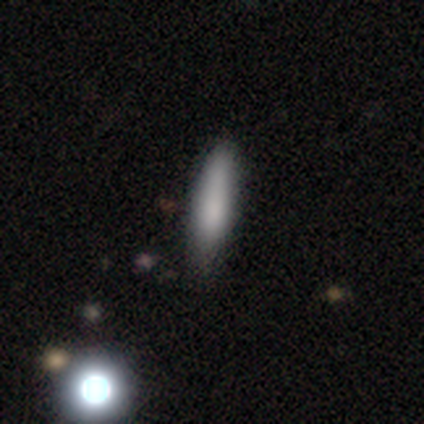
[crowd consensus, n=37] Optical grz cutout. It shows a smooth galaxy with no disk features (73%) that is cigar-shaped (70%). Merging: none (66%).